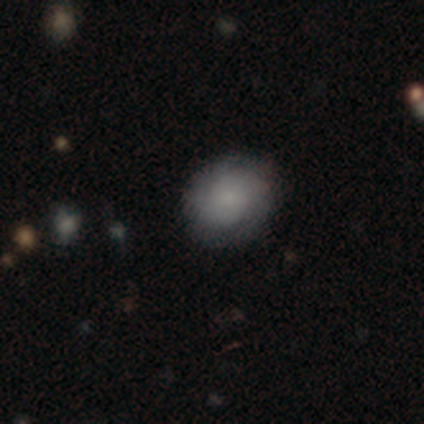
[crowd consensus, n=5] A smooth galaxy with no disk features (100%) that is in between round and cigar-shaped (60%).

Vote fractions:
- Smooth or featured? smooth: 100% / featured or disk: 0% / star or artifact: 0%
- How rounded? in between: 60% / round: 40% / cigar-shaped: 0%
- Merging? none: 100% / minor disturbance: 0% / major disturbance: 0% / merger: 0%